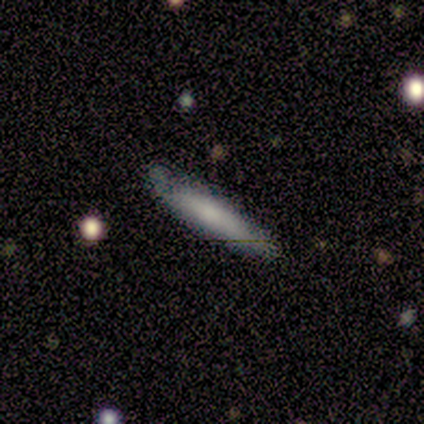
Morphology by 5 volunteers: smooth_or_featured: smooth (p=0.60) [alt: featured or disk p=0.40]
how_rounded: cigar-shaped (p=1.00)
merging: minor disturbance (p=0.60) [alt: none p=0.40]